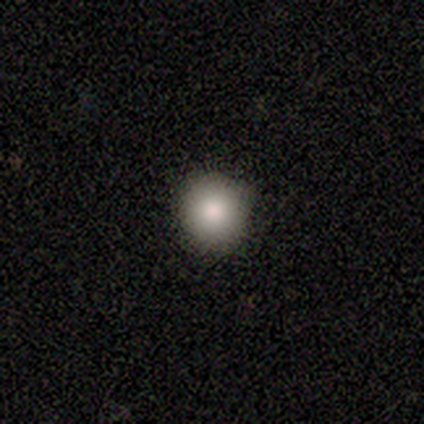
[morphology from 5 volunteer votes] Overall: smooth (60%; featured or disk 20%). How rounded: round (100%). Merging: none (100%).